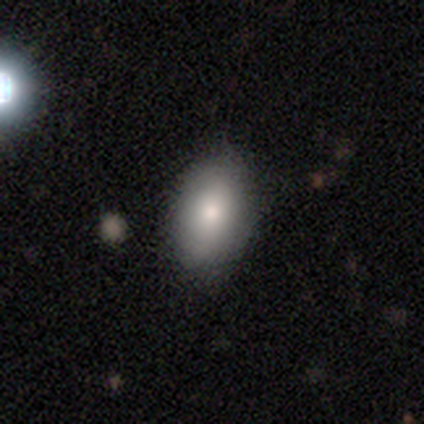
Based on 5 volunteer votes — Smooth or featured? smooth (80%)
How rounded? in between (100%)
Merging? none (100%)